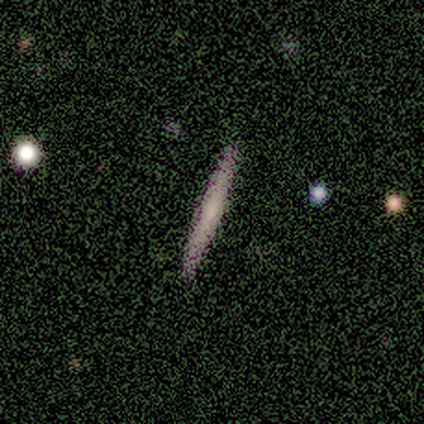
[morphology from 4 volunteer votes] Q: Smooth or featured?
A: featured or disk (75%); runner-up: smooth (25%)
Q: Edge-on disk?
A: yes (100%)
Q: Edge-on bulge?
A: none (100%)
Q: Merging?
A: none (100%)